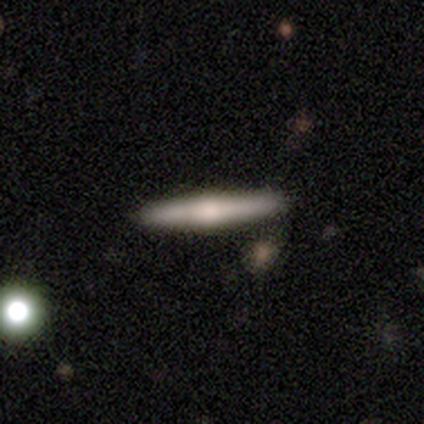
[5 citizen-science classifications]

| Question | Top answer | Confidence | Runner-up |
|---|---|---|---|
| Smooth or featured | featured or disk | 80% | smooth (20%) |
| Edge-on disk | yes | 100% | — |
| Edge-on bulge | rounded | 75% | none (25%) |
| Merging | none | 80% | merger (20%) |